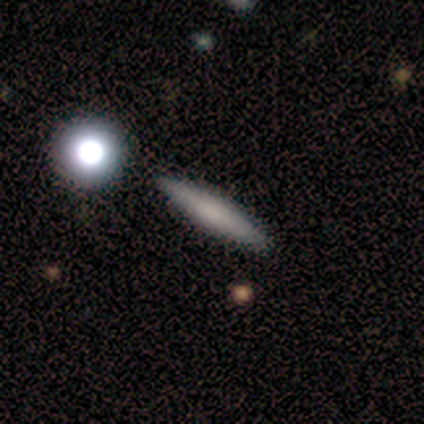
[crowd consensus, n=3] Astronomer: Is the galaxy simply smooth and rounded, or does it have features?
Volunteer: featured or disk — 67%.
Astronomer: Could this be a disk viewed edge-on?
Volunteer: yes — 100%.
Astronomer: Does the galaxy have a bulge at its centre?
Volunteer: none — 100%.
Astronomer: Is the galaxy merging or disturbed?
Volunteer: none — 100%.